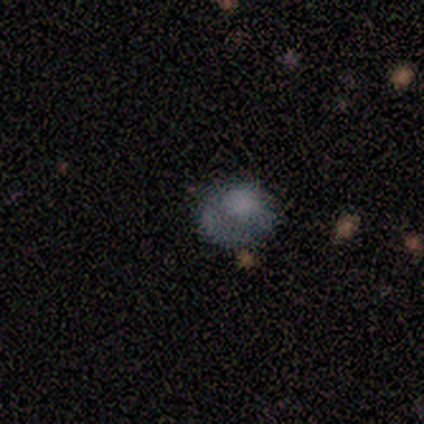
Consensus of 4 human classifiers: Overall: smooth (100%). How rounded: round (75%). Merging: none (75%).